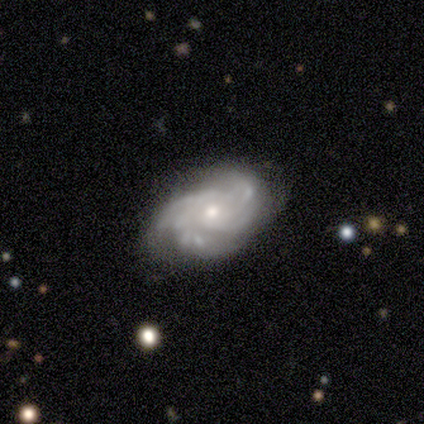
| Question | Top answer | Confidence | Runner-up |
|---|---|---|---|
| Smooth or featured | featured or disk | 100% | — |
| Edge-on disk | no | 100% | — |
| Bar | no | 86% | weak (14%) |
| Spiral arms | yes | 100% | — |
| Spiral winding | tight | 57% | medium (43%) |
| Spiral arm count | can't tell | 57% | 3 (29%) |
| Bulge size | small | 57% | moderate (43%) |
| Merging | none | 71% | minor disturbance (14%) |